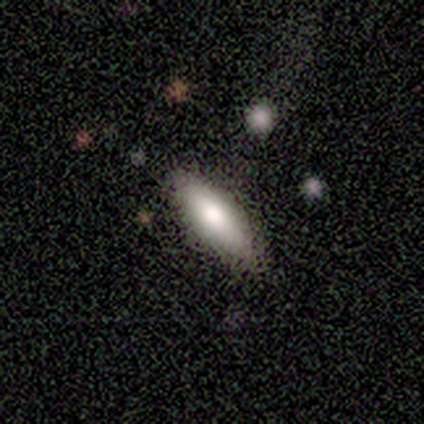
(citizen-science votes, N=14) Overall: smooth (86%). How rounded: in between (67%; cigar-shaped 33%). Merging: none (85%).